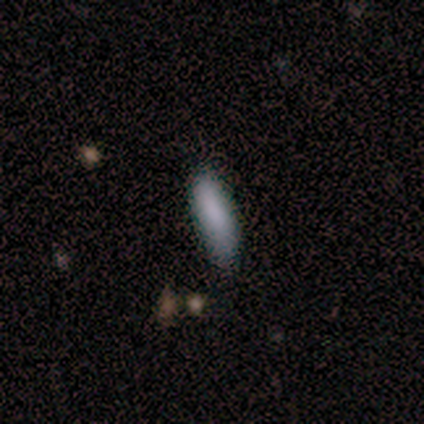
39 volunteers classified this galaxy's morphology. smooth_or_featured: smooth (p=0.85) [alt: featured or disk p=0.13]
how_rounded: cigar-shaped (p=0.61) [alt: in between p=0.33]
merging: none (p=0.68) [alt: minor disturbance p=0.26]